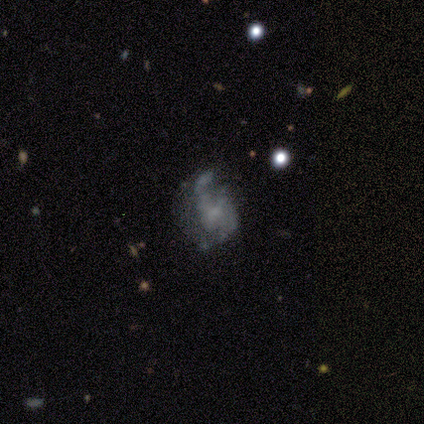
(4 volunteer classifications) featured or disk 50% (tied), star or artifact 50% (tied), smooth 0%. Down the decision tree: edge-on disk — no (100%); bar — strong (50%, tied with weak); spiral arms — yes (100%); spiral arm count — 1 (50%, tied with 2); spiral winding — loose (100%); bulge size — small (50%, tied with none); merging — minor disturbance (50%, tied with major disturbance).